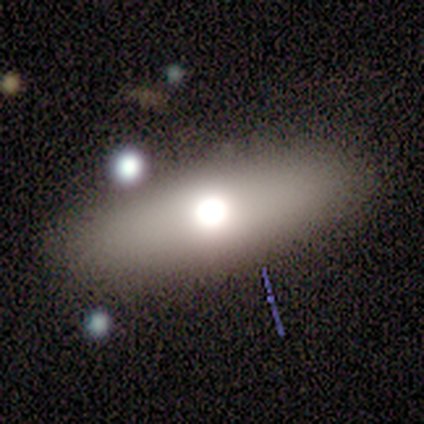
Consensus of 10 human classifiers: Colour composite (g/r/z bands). It shows a smooth galaxy with no disk features (40%, tied with featured or disk) that is in between round and cigar-shaped (75%). Merging: none (75%).